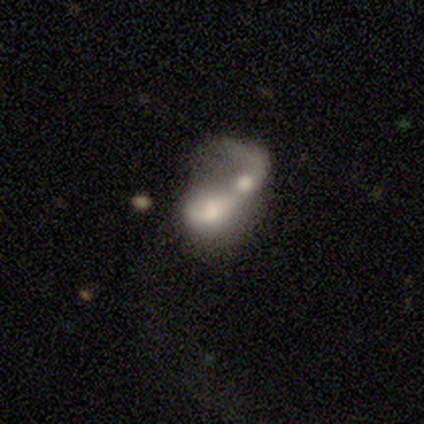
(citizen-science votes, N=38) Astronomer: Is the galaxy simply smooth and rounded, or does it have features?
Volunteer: featured or disk — 53% (runner-up: smooth, 42%).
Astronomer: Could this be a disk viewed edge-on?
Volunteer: no — 80%.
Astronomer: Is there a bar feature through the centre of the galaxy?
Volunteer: no — 75%.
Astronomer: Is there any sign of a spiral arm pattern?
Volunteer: no — 56% (runner-up: yes, 44%).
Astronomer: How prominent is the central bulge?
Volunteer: moderate — 44% (runner-up: large, 31%).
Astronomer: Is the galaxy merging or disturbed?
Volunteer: merger — 83%.